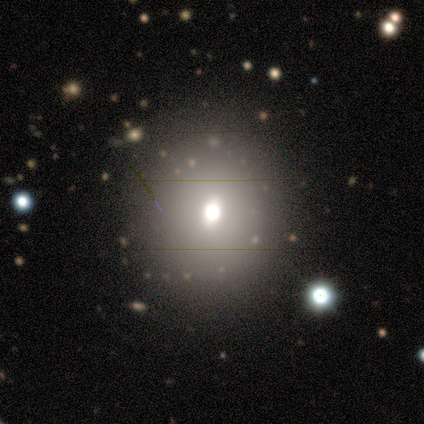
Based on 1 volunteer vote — smooth_or_featured: smooth (p=1.00)
how_rounded: round (p=1.00)
merging: none (p=1.00)